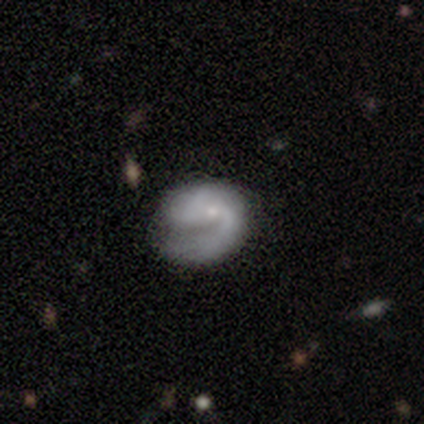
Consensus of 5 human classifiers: A smooth galaxy with no disk features (60%) that is in between round and cigar-shaped (67%). Merging: none (80%).